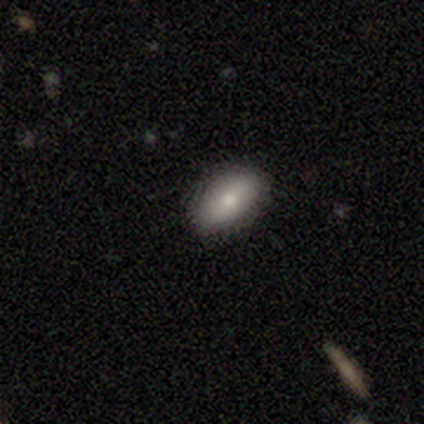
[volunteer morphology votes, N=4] Smooth or featured?
  - smooth: 50% * (tied)
  - featured or disk: 50% * (tied)
  - star or artifact: 0%
How rounded?
  - round: 50% * (tied)
  - in between: 50% * (tied)
  - cigar-shaped: 0%
Merging?
  - none: 100% *
  - minor disturbance: 0%
  - major disturbance: 0%
  - merger: 0%